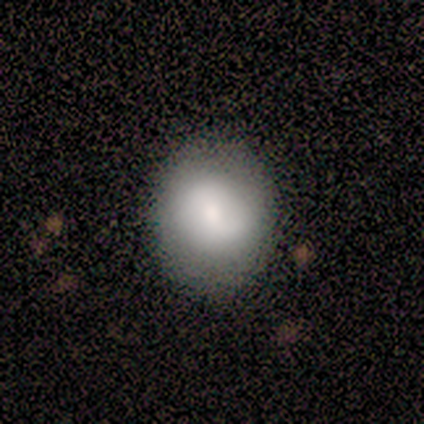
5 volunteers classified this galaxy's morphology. Overall: smooth (100%). How rounded: round (80%). Merging: none (100%).